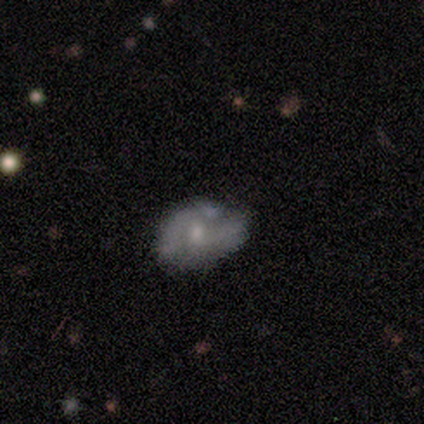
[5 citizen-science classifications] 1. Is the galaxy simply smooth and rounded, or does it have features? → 40% smooth (tied), 40% featured or disk (tied), 20% star or artifact.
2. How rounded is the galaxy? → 100% in between, 0% round, 0% cigar-shaped.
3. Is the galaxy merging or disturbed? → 75% none, 25% minor disturbance, 0% major disturbance, 0% merger.